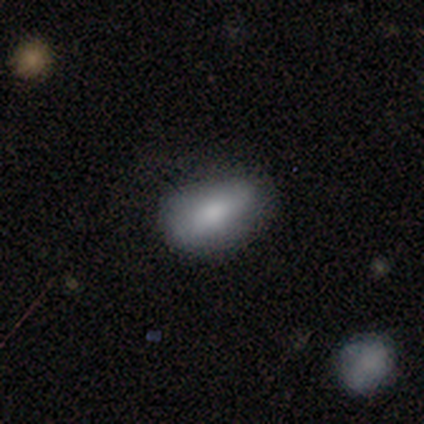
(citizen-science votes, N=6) Smooth or featured?
  - smooth: 100% *
  - featured or disk: 0%
  - star or artifact: 0%
How rounded?
  - in between: 100% *
  - round: 0%
  - cigar-shaped: 0%
Merging?
  - none: 50% *
  - major disturbance: 33%
  - minor disturbance: 17%
  - merger: 0%